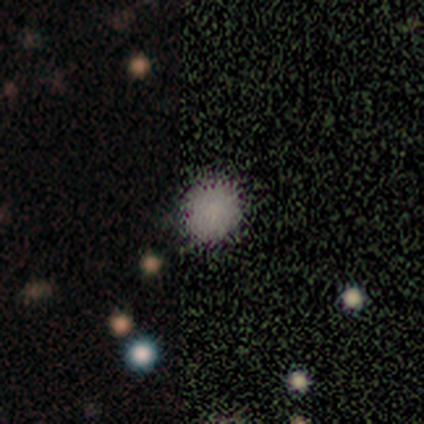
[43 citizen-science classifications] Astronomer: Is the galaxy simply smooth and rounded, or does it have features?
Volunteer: smooth — 60%.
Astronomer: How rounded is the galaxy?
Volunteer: round — 92%.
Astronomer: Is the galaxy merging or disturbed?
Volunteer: none — 83%.